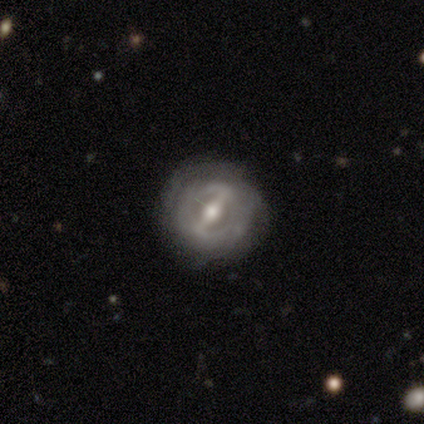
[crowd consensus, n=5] A featured or disk galaxy (80%) with a strong bar (75%), 2 (100%) tight (33%, tied with medium and loose) spiral arms (75%) and a moderate central bulge (100%).

Vote fractions:
- Smooth or featured? featured or disk: 80% / smooth: 20% / star or artifact: 0%
- Edge-on disk? no: 100% / yes: 0%
- Bar? strong: 75% / weak: 25% / no: 0%
- Spiral arms? yes: 75% / no: 25%
- Spiral winding? tight: 33% (tied) / medium: 33% (tied) / loose: 33% (tied)
- Spiral arm count? 2: 100% / 1: 0% / 3: 0% / 4: 0% / more than 4: 0% / can't tell: 0%
- Bulge size? moderate: 100% / dominant: 0% / large: 0% / small: 0% / none: 0%
- Merging? none: 100% / minor disturbance: 0% / major disturbance: 0% / merger: 0%